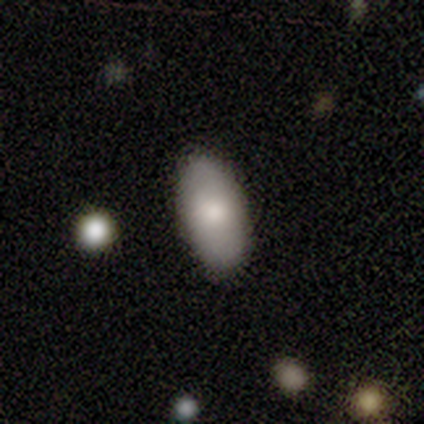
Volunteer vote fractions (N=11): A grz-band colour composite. It shows a smooth galaxy with no disk features (100%) that is in between round and cigar-shaped (91%). Merging: none (100%).